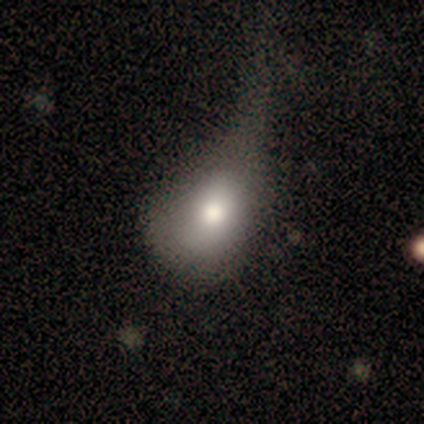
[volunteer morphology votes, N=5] Overall: smooth (80%). How rounded: round (50%, tied with in between). Merging: major disturbance (80%).